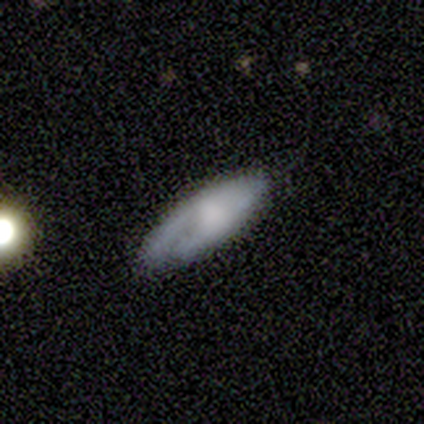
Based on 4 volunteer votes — Overall: smooth (75%). How rounded: in between (100%). Merging: minor disturbance (50%; none 25%).